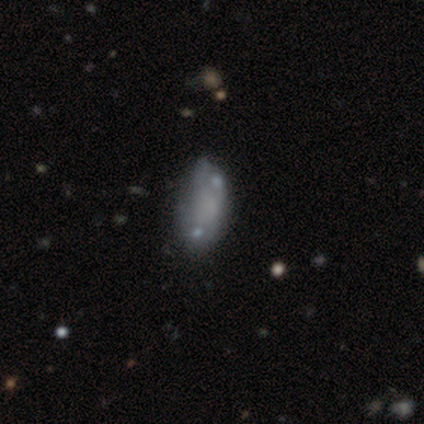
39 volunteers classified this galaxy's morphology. A smooth galaxy with no disk features (51%) that is in between round and cigar-shaped (90%). Merging: none (29%).